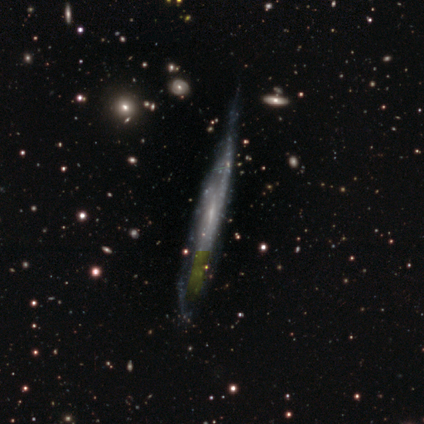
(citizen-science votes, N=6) Q: Smooth or featured?
A: featured or disk (83%); runner-up: smooth (17%)
Q: Edge-on disk?
A: yes (80%); runner-up: no (20%)
Q: Edge-on bulge?
A: none (75%); runner-up: rounded (25%)
Q: Merging?
A: none (50%); runner-up: minor disturbance (17%)